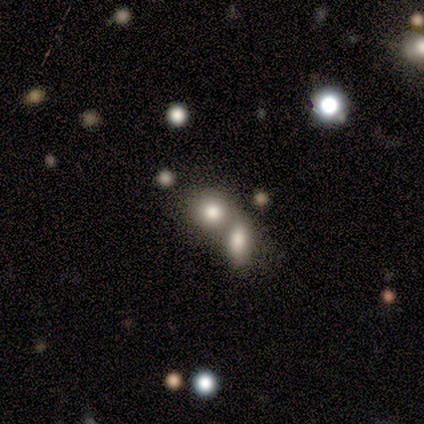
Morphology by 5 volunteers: Smooth or featured? featured or disk (60%)
Edge-on disk? no (100%)
Bar? no (100%)
Spiral arms? no (100%)
Bulge size? large (67%)
Merging? merger (60%)